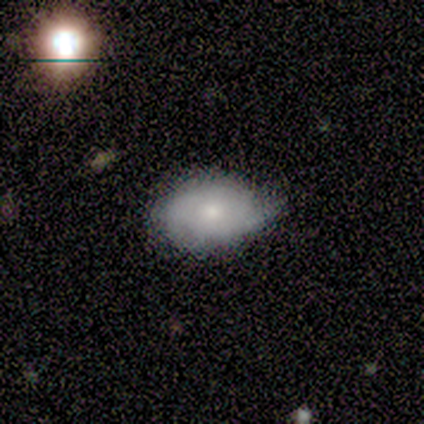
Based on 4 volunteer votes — smooth-or-featured: smooth: 50% (tied) | featured or disk: 50% (tied) | star or artifact: 0%
  how-rounded: in between: 100% | round: 0% | cigar-shaped: 0%
  merging: minor disturbance: 75% | none: 25% | major disturbance: 0% | merger: 0%